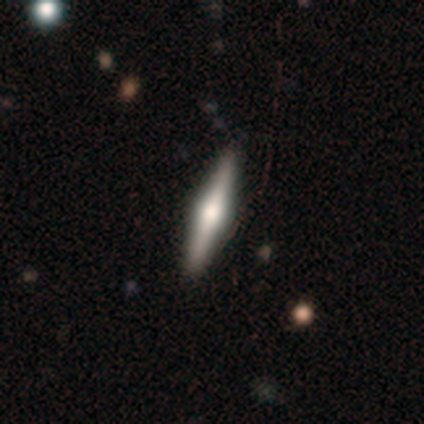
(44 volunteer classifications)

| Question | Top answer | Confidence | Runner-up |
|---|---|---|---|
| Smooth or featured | featured or disk | 70% | smooth (23%) |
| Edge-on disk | yes | 100% | — |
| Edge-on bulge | rounded | 94% | boxy (6%) |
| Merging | none | 80% | minor disturbance (15%) |